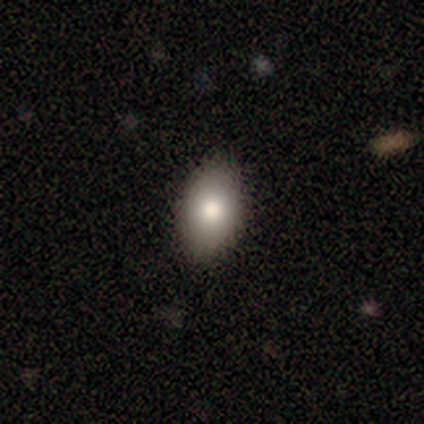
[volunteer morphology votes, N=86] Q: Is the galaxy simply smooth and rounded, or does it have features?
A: smooth — 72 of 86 (84%).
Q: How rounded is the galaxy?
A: in between — 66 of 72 (92%).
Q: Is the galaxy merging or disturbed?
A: none — 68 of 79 (86%).